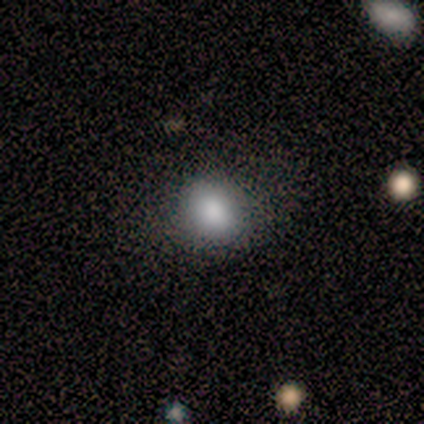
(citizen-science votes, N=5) Q: Smooth or featured?
A: smooth (80%); runner-up: featured or disk (20%)
Q: How rounded?
A: round (75%); runner-up: in between (25%)
Q: Merging?
A: none (80%); runner-up: merger (20%)